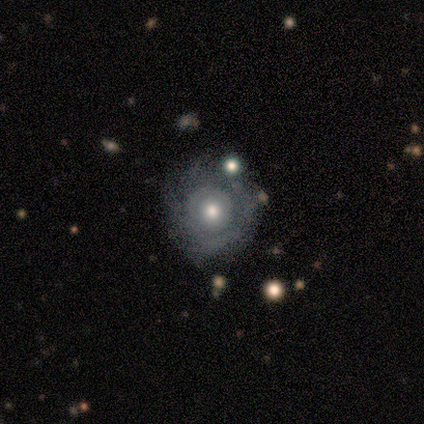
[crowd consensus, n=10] Smooth or featured? featured or disk (60%)
Edge-on disk? no (83%)
Bar? no (100%)
Spiral arms? no (60%)
Bulge size? moderate (80%)
Merging? none (70%)